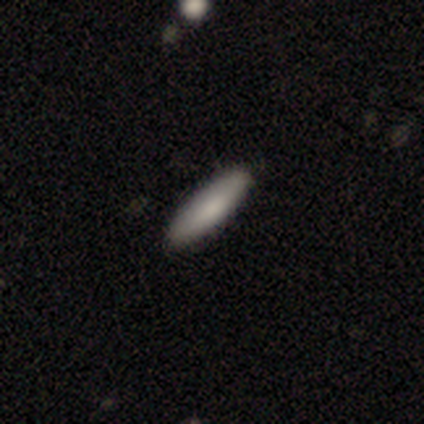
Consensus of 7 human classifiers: Smooth or featured?
  - smooth: 57% *
  - featured or disk: 43%
  - star or artifact: 0%
How rounded?
  - cigar-shaped: 75% *
  - in between: 25%
  - round: 0%
Merging?
  - none: 86% *
  - minor disturbance: 14%
  - major disturbance: 0%
  - merger: 0%